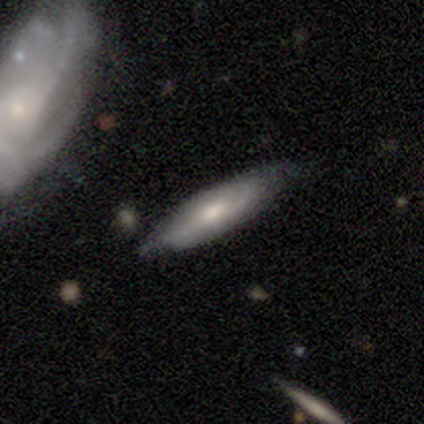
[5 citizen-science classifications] Morphology: type=featured or disk (60%); edge-on=no (67%); bar=no (100%); spiral arms=yes (100%); winding=tight (100%); arm count=2 (50%, tied with can't tell); bulge=moderate (100%); merging=none (100%).